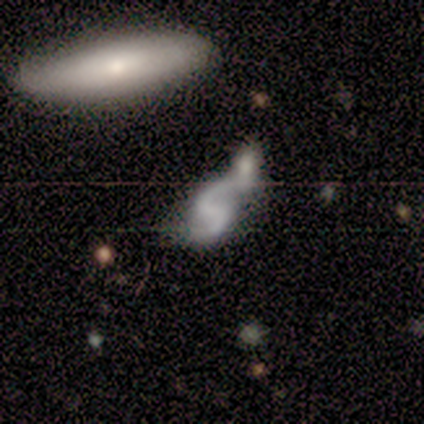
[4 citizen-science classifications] A featured or disk galaxy (100%) with a weak bar (75%), 2 (100%) loose (100%) spiral arms (75%) and no central bulge (75%). Merging: none (50%, tied with merger).